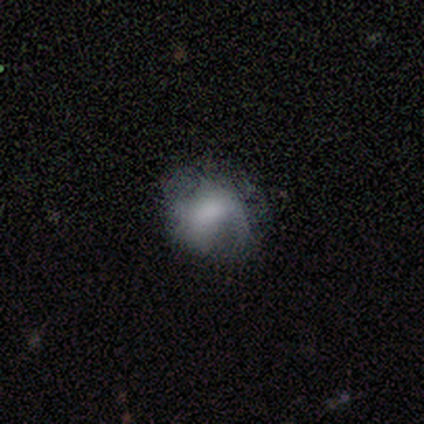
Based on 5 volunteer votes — Volunteers were most divided on "smooth or featured": smooth: 60%, featured or disk: 40%, star or artifact: 0%. More confident: merging — major disturbance (80%); how rounded — in between (67%).